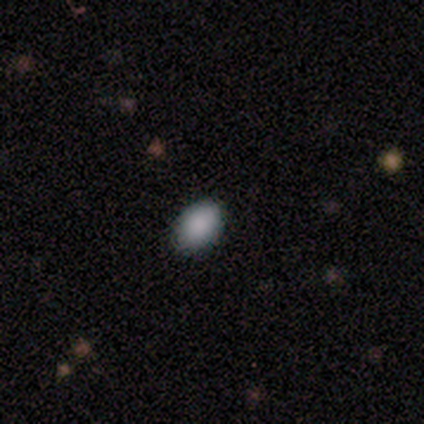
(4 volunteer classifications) A smooth galaxy with no disk features (100%) that is in between round and cigar-shaped (100%).

Vote fractions:
- Smooth or featured? smooth: 100% / featured or disk: 0% / star or artifact: 0%
- How rounded? in between: 100% / round: 0% / cigar-shaped: 0%
- Merging? none: 75% / minor disturbance: 25% / major disturbance: 0% / merger: 0%